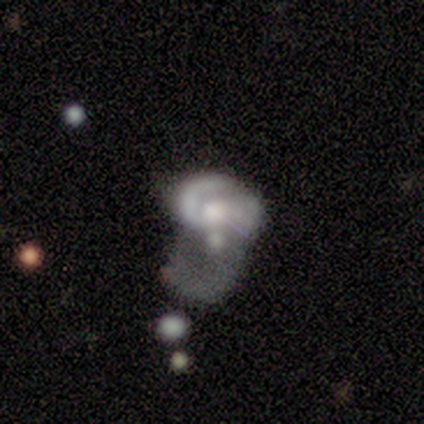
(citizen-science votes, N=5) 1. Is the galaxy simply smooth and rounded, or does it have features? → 100% featured or disk, 0% smooth, 0% star or artifact.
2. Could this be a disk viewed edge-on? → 100% no, 0% yes.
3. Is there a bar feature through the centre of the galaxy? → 80% no, 20% weak, 0% strong.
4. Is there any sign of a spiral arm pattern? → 60% yes, 40% no.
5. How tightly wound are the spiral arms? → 67% tight, 33% medium, 0% loose.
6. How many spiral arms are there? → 33% 1 (tied), 33% 2 (tied), 33% can't tell (tied), 0% 3, 0% 4, 0% more than 4.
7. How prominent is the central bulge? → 60% moderate, 20% large, 20% small, 0% dominant, 0% none.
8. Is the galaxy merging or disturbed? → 60% merger, 40% major disturbance, 0% none, 0% minor disturbance.